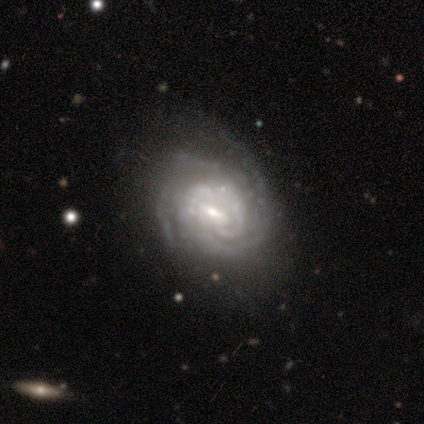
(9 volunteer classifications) smooth-or-featured: featured or disk: 100% | smooth: 0% | star or artifact: 0%
  disk-edge-on: no: 100% | yes: 0%
    bar: weak: 67% | strong: 33% | no: 0%
    has-spiral-arms: yes: 100% | no: 0%
      spiral-winding: tight: 78% | medium: 11% | loose: 11%
      spiral-arm-count: 2: 67% | 3: 11% | 4: 11% | can't tell: 11% | 1: 0% | more than 4: 0%
    bulge-size: small: 56% | moderate: 33% | large: 11% | dominant: 0% | none: 0%
  merging: none: 56% | minor disturbance: 33% | major disturbance: 11% | merger: 0%